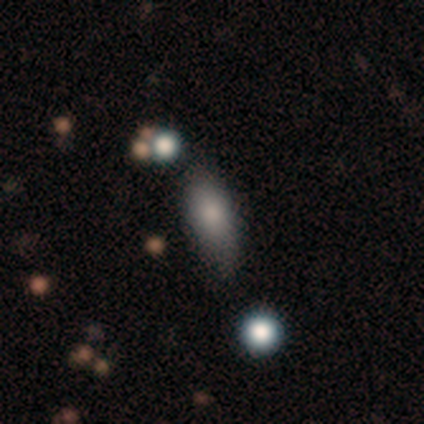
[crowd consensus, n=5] Overall: smooth (80%). How rounded: in between (100%). Merging: none (50%; minor disturbance 25%).